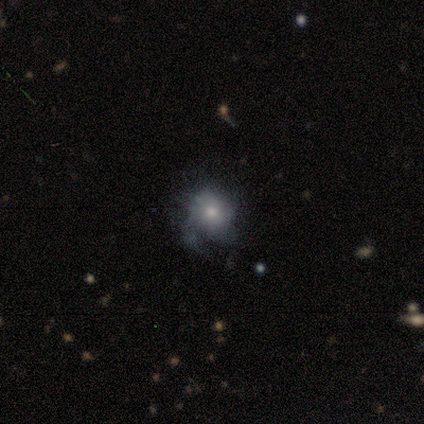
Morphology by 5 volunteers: Overall: featured or disk (60%; smooth 40%). Edge-on disk: no (100%). Bar: no (100%). Spiral arms: no (67%; yes 33%). Bulge size: moderate (67%; small 33%). Merging: minor disturbance (40%, tied with major disturbance).